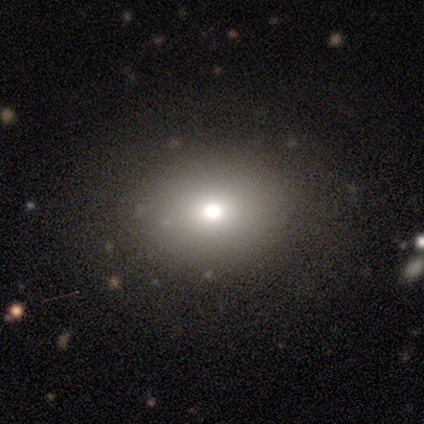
smooth-or-featured: smooth: 80% | featured or disk: 20% | star or artifact: 0%
  how-rounded: in between: 75% | round: 25% | cigar-shaped: 0%
  merging: none: 80% | minor disturbance: 20% | major disturbance: 0% | merger: 0%